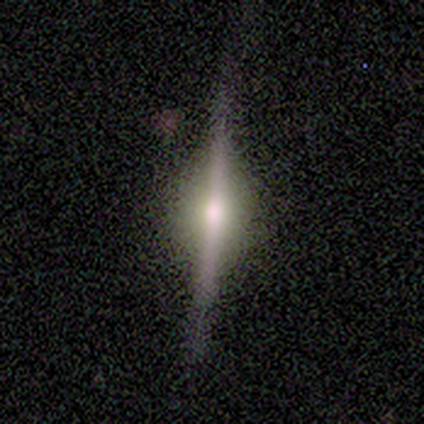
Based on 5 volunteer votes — featured or disk 80%, smooth 20%, star or artifact 0%. Down the decision tree: edge-on disk — yes (100%); edge-on bulge — rounded (100%); merging — none (100%).